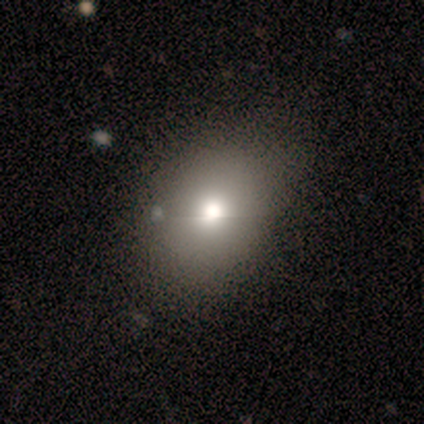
Q: Smooth or featured?
A: smooth (80%); runner-up: featured or disk (20%)
Q: How rounded?
A: in between (75%); runner-up: round (25%)
Q: Merging?
A: none (80%); runner-up: merger (20%)